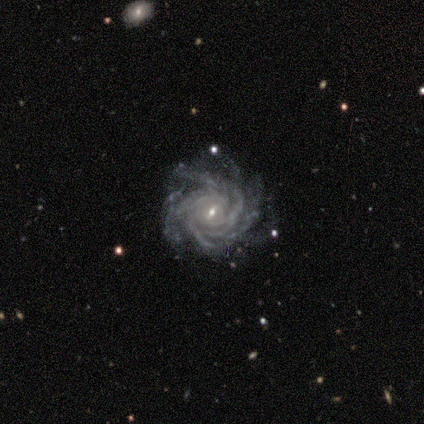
A featured or disk galaxy (100%) with a weak bar (40%, tied with no), more than 4 (60%) tight (100%) spiral arms (100%) and a small central bulge (60%).

Vote fractions:
- Smooth or featured? featured or disk: 100% / smooth: 0% / star or artifact: 0%
- Edge-on disk? no: 100% / yes: 0%
- Bar? weak: 40% (tied) / no: 40% (tied) / strong: 20%
- Spiral arms? yes: 100% / no: 0%
- Spiral winding? tight: 100% / medium: 0% / loose: 0%
- Spiral arm count? more than 4: 60% / 4: 20% / can't tell: 20% / 1: 0% / 2: 0% / 3: 0%
- Bulge size? small: 60% / large: 20% / moderate: 20% / dominant: 0% / none: 0%
- Merging? none: 80% / minor disturbance: 20% / major disturbance: 0% / merger: 0%